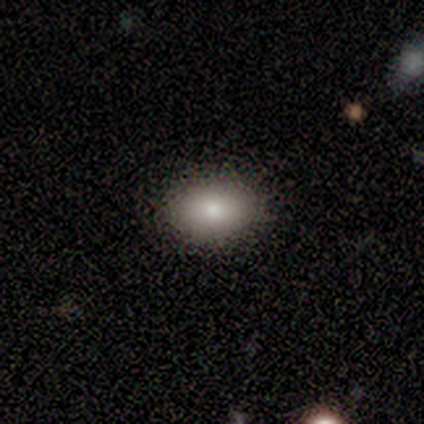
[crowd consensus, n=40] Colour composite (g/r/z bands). It shows a smooth galaxy with no disk features (85%) that is in between round and cigar-shaped (79%). Merging: none (92%).